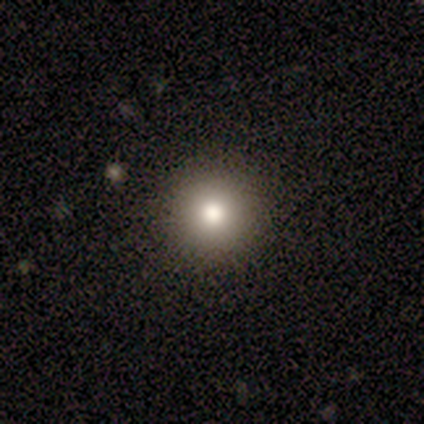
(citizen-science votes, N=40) Smooth or featured? 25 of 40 (62%) said smooth. How rounded? 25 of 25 (100%) said round. Merging? 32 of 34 (94%) said none.